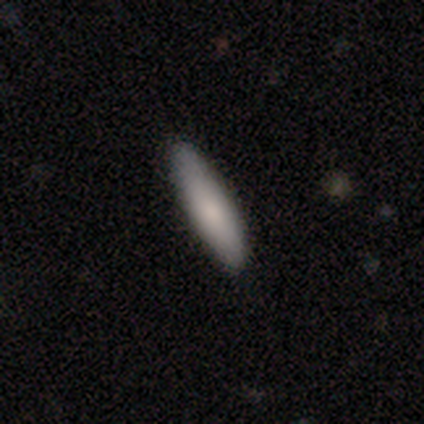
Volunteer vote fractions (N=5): This is clearly a smooth galaxy (100%). How rounded: likely cigar-shaped (60%). Merging: clearly none (100%).